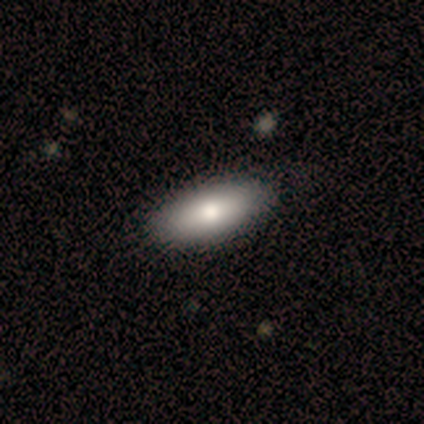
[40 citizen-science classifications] A smooth galaxy with no disk features (80%) that is in between round and cigar-shaped (84%).

Vote fractions:
- Smooth or featured? smooth: 80% / featured or disk: 15% / star or artifact: 5%
- How rounded? in between: 84% / cigar-shaped: 16% / round: 0%
- Merging? none: 63% / minor disturbance: 3% / major disturbance: 0% / merger: 0%